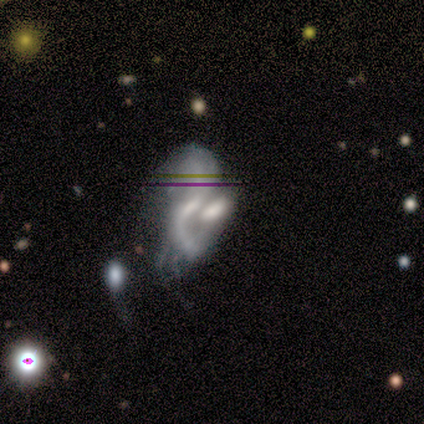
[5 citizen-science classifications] This is clearly a featured or disk galaxy (80%). It is clearly not viewed edge-on (100%). Bar: clearly weak (100%). Spiral arm pattern: likely yes (75%). Spiral arm count: likely 2 (67%). Spiral winding: clearly loose (100%). Central bulge: likely small (75%). Merging: likely merger (60%).